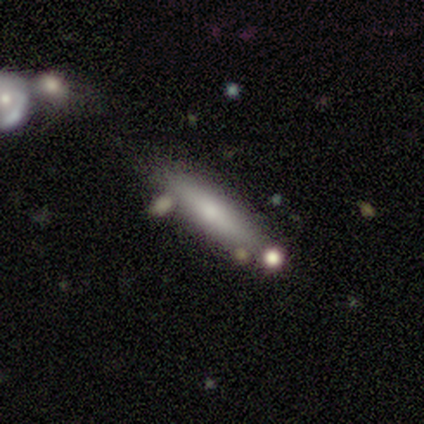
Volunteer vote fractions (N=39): Smooth or featured? 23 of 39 (59%) said smooth. How rounded? 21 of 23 (91%) said cigar-shaped. Merging? 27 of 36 (75%) said none.